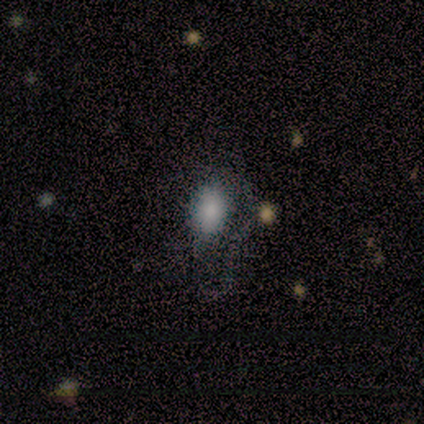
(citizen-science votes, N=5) Overall: smooth (60%; featured or disk 20%). How rounded: in between (100%). Merging: major disturbance (50%; none 25%).